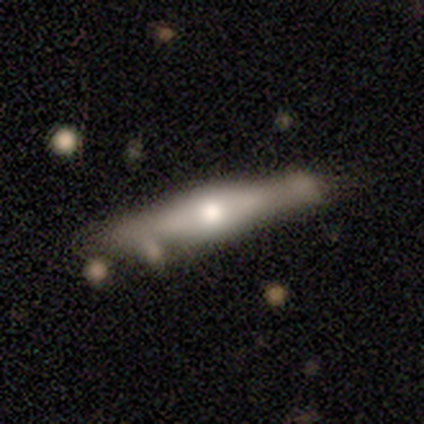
Q: Smooth or featured?
A: featured or disk (100%)
Q: Edge-on disk?
A: yes (100%)
Q: Edge-on bulge?
A: rounded (80%); runner-up: boxy (20%)
Q: Merging?
A: minor disturbance (60%); runner-up: none (40%)